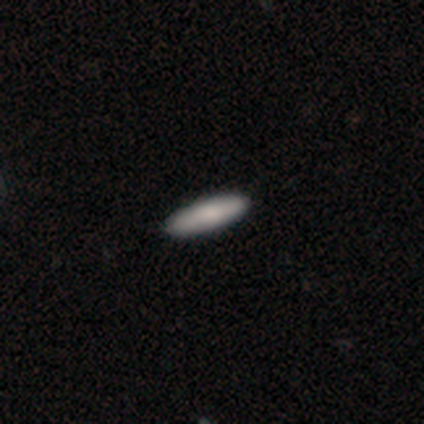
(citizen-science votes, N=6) A smooth galaxy with no disk features (83%) that is cigar-shaped (80%). Merging: none (100%).